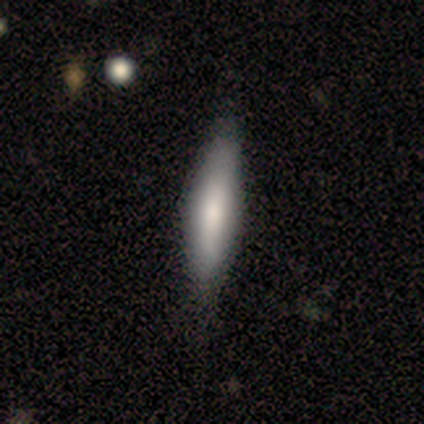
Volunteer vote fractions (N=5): Morphology: type=smooth (60%); roundness=cigar-shaped (67%); merging=none (50%, tied with minor disturbance).